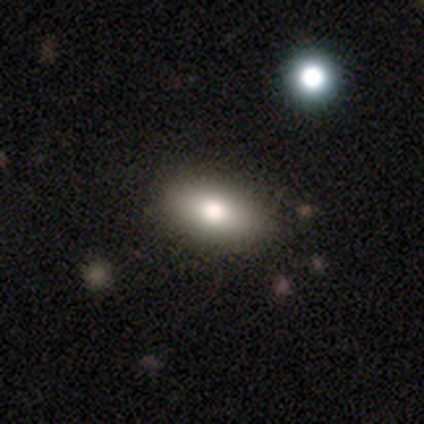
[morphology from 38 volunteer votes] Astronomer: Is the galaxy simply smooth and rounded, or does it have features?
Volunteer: smooth — 79%.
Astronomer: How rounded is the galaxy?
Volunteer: in between — 90%.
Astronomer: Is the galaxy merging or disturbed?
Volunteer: none — 83%.